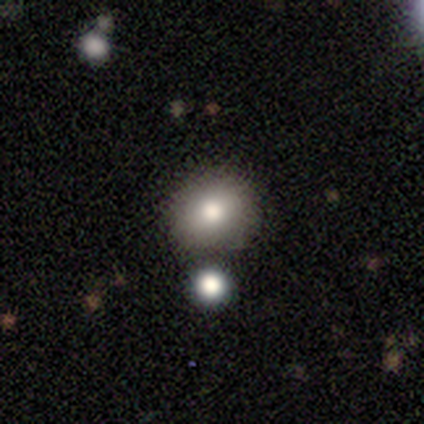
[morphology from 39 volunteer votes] type=smooth (79%); roundness=round (71%); merging=none (82%).